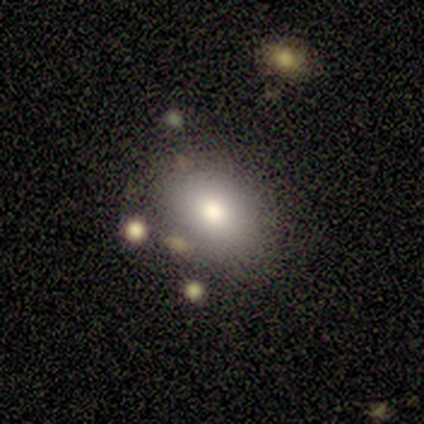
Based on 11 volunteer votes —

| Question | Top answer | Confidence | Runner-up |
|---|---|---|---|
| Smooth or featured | smooth | 82% | featured or disk (9%) |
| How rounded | in between | 67% | round (33%) |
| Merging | none | 70% | minor disturbance (20%) |